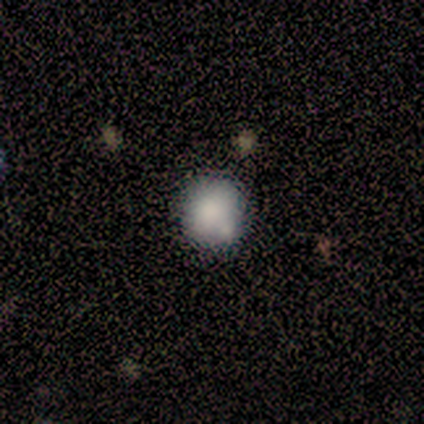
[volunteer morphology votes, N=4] Q: Smooth or featured?
A: featured or disk (50%); runner-up: smooth (25%)
Q: Edge-on disk?
A: no (100%)
Q: Bar?
A: no (100%)
Q: Spiral arms?
A: no (100%)
Q: Bulge size?
A: large (50%); tied with: moderate (50%)
Q: Merging?
A: none (67%); runner-up: merger (33%)